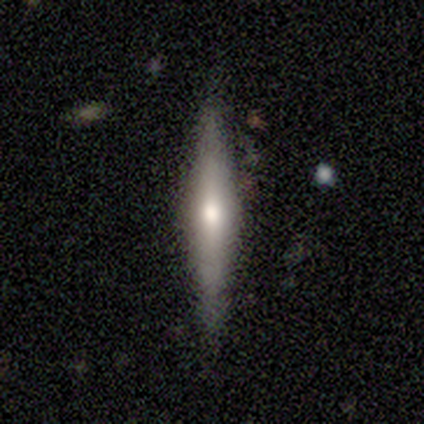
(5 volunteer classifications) A featured or disk galaxy (100%) viewed edge-on (100%) with a rounded central bulge (60%). Merging: none (60%).